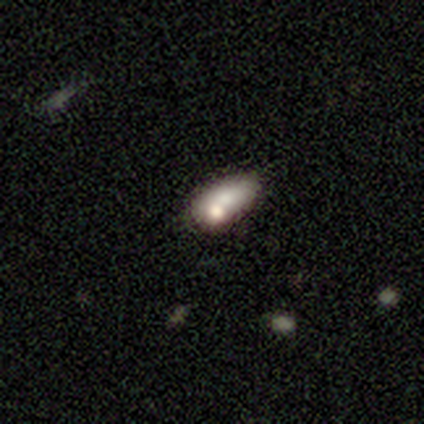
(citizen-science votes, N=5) Smooth or featured? 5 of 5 (100%) said smooth. How rounded? 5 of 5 (100%) said in between. Merging? 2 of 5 (40%, tied with merger) said none.